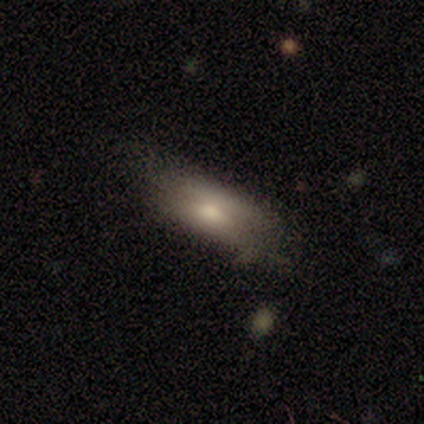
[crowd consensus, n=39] smooth-or-featured: smooth: 69% | featured or disk: 23% | star or artifact: 8%
  how-rounded: in between: 81% | cigar-shaped: 19% | round: 0%
  merging: none: 50% | minor disturbance: 28% | major disturbance: 19% | merger: 3%